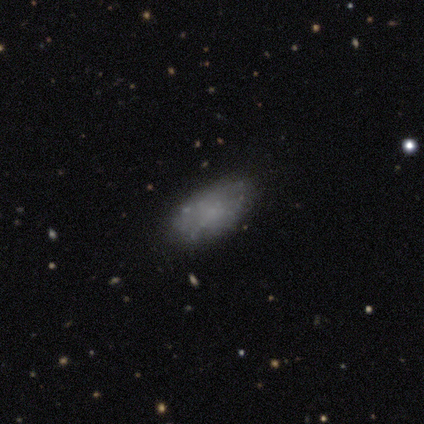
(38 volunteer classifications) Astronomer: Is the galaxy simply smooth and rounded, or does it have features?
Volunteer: smooth — 47%, tied with featured or disk at 47%.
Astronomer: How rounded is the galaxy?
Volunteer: in between — 100%.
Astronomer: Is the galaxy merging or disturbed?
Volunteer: none — 69%.